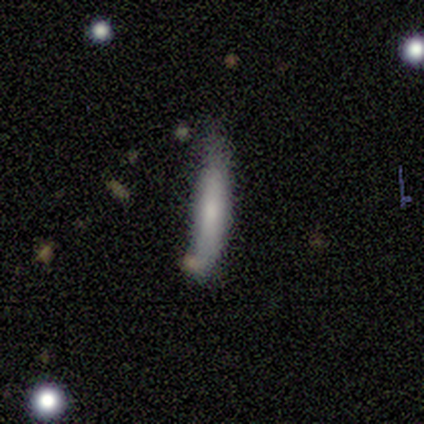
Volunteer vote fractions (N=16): Smooth or featured? 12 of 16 (75%) said smooth. How rounded? 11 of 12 (92%) said cigar-shaped. Merging? 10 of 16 (62%) said none.